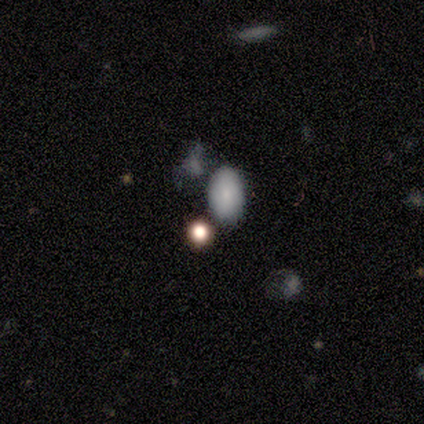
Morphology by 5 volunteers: This appears to be a smooth galaxy with no disk features (100%) that is in between round and cigar-shaped (60%). Merging: none (60%).